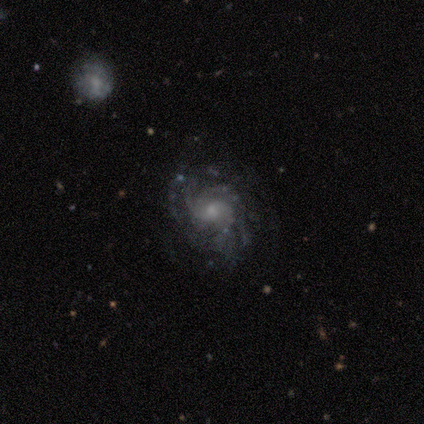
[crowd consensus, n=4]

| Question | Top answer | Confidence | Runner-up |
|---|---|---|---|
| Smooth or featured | featured or disk | 100% | — |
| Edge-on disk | no | 100% | — |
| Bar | no | 100% | — |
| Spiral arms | yes | 100% | — |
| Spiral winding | medium | 50% | tied: loose (50%) |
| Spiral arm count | can't tell | 50% | 1 (25%) |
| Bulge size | small | 75% | moderate (25%) |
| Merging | none | 25% | tied: minor disturbance (25%), major disturbance (25%), merger (25%) |